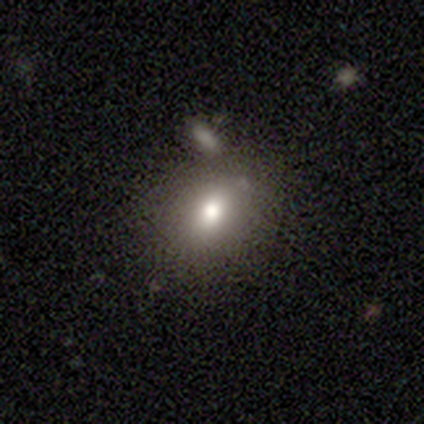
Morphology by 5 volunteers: This appears to be a smooth galaxy with no disk features (80%) that is in between round and cigar-shaped (100%). Merging: none (50%, tied with minor disturbance).